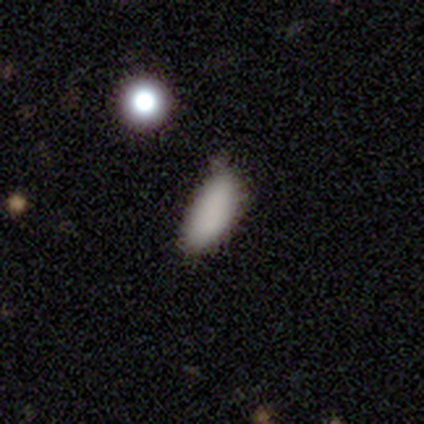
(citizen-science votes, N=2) Consensus on every question: smooth or featured — star or artifact (100%).